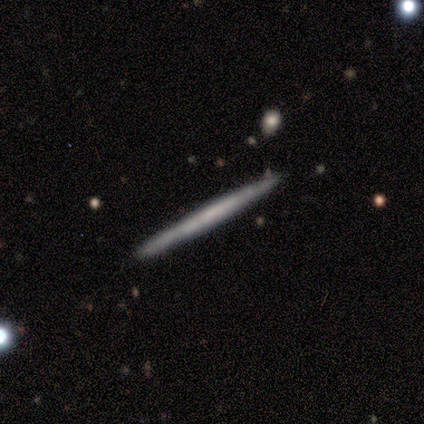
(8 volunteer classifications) A smooth galaxy with no disk features (50%) that is cigar-shaped (100%). Merging: none (86%).